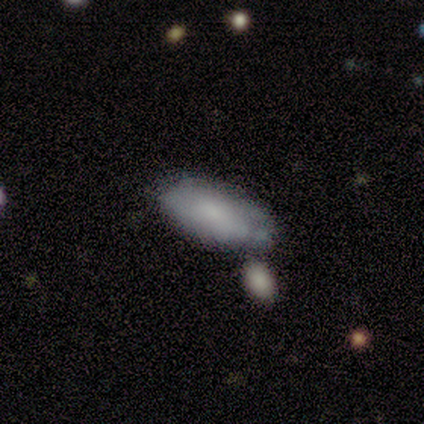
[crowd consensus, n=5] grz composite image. It shows a smooth galaxy with no disk features (60%) that is in between round and cigar-shaped (100%). Merging: none (60%).